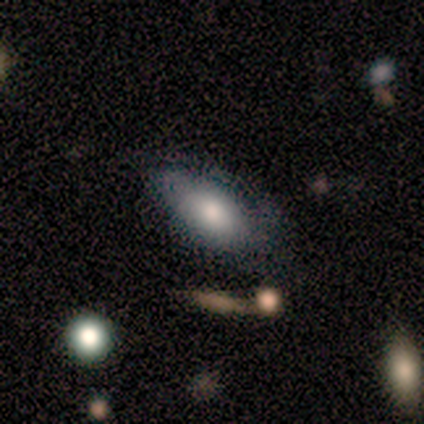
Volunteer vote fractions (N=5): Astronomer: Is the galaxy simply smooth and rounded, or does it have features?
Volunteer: smooth — 80%.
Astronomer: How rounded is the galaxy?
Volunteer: in between — 75%.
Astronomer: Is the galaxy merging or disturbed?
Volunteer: major disturbance — 60% (runner-up: none, 40%).